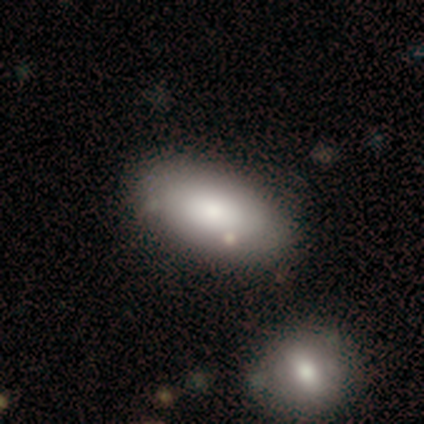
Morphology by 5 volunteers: This is clearly a smooth galaxy (80%). How rounded: clearly in between (100%). Merging: likely none (75%).